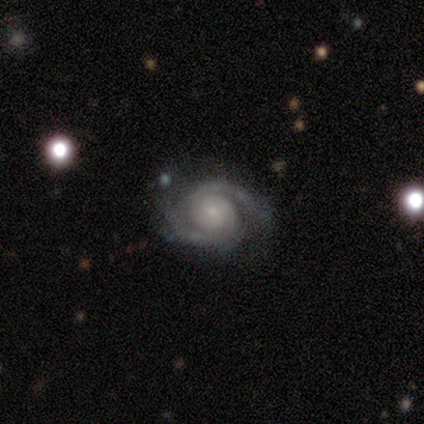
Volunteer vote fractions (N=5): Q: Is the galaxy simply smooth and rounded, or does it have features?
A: featured or disk — 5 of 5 (100%).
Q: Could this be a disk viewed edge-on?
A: no — 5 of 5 (100%).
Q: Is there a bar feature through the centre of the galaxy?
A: no — 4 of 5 (80%).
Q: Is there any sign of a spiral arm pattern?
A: yes — 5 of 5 (100%).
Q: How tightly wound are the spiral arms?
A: tight — 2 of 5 (40%, tied with loose).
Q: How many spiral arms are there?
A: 2 — 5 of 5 (100%).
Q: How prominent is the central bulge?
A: small — 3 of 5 (60%).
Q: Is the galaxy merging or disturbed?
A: none — 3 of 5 (60%).